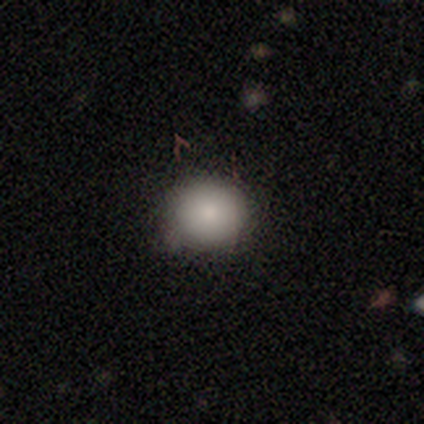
Smooth or featured? 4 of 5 (80%) said smooth. How rounded? 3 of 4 (75%) said round. Merging? 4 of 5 (80%) said none.